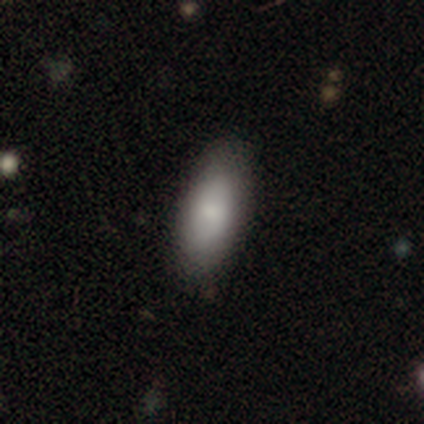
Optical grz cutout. It shows a smooth galaxy with no disk features (60%) that is in between round and cigar-shaped (100%). Merging: none (100%).